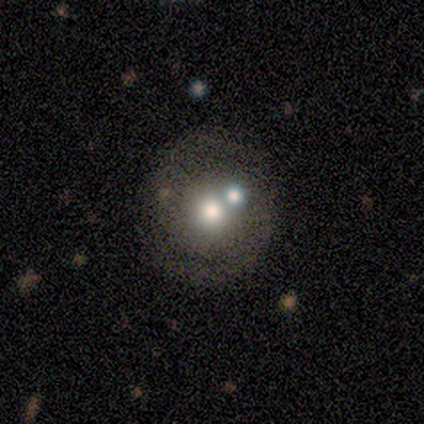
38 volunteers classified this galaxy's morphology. A featured or disk galaxy (58%) with no bar (95%), 2 (82%) tight (59%) spiral arms (77%) and a moderate central bulge (50%). Merging: none (49%).